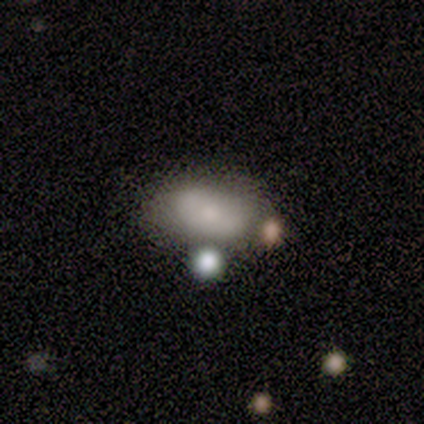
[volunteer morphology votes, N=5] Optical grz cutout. It shows a smooth galaxy with no disk features (80%) that is in between round and cigar-shaped (100%). Merging: none (60%).